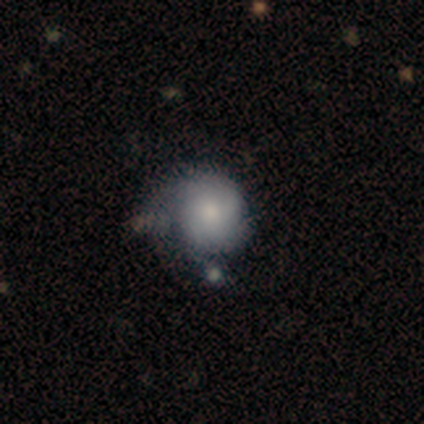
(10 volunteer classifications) This appears to be a featured or disk galaxy (50%) with no bar (100%), 3 (50%) tight (50%, tied with medium) spiral arms (80%) and a small central bulge (60%). Merging: minor disturbance (33%, tied with major disturbance).